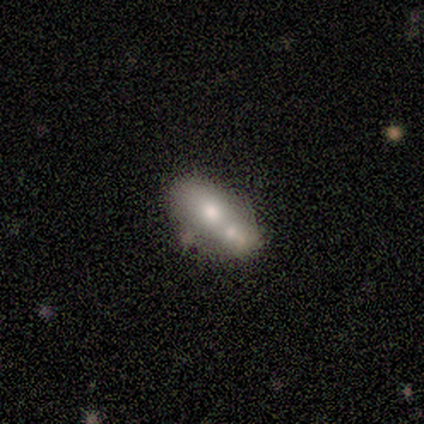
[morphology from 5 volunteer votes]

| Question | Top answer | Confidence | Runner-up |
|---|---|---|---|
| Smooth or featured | featured or disk | 60% | smooth (40%) |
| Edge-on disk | no | 67% | yes (33%) |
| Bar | no | 100% | — |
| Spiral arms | no | 100% | — |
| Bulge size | large | 50% | tied: moderate (50%) |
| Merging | none | 60% | merger (40%) |